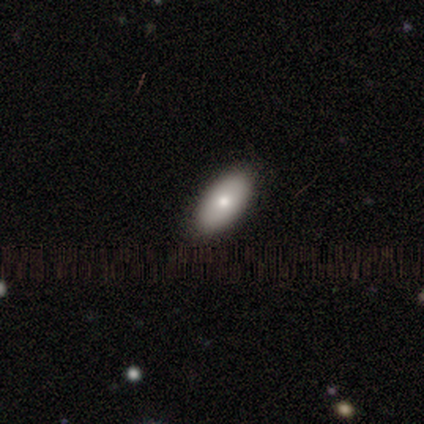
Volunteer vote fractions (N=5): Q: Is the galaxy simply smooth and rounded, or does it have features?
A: smooth — 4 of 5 (80%).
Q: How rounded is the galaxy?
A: in between — 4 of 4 (100%).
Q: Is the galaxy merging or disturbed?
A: none — 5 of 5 (100%).